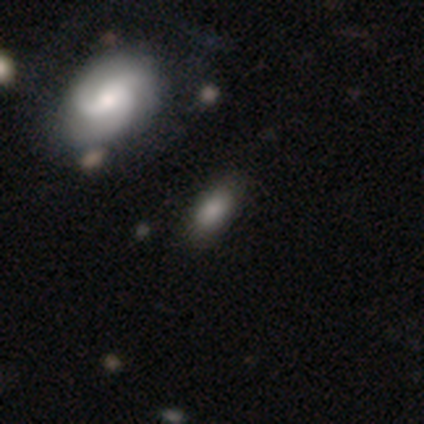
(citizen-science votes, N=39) Smooth or featured: smooth — 69% (featured or disk — 18%)
How rounded: in between — 89% (round — 7%)
Merging: none — 82% (minor disturbance — 12%)